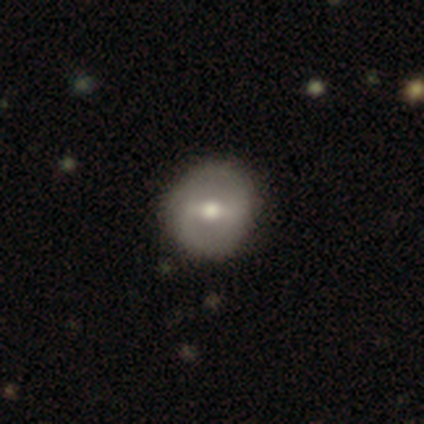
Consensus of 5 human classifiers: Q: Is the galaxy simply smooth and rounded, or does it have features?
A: smooth — 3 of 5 (60%).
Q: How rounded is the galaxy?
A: round — 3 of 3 (100%).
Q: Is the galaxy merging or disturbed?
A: none — 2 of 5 (40%, tied with minor disturbance).